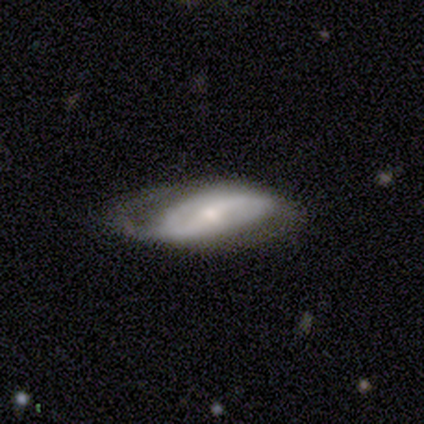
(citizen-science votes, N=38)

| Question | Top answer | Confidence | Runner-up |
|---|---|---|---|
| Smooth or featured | featured or disk | 79% | smooth (21%) |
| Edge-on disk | no | 83% | yes (17%) |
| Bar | strong | 40% | weak (36%) |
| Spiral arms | yes | 92% | no (8%) |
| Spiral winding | loose | 48% | tight (30%) |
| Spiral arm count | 2 | 74% | 1 (13%) |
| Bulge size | small | 72% | moderate (20%) |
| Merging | none | 47% | minor disturbance (29%) |